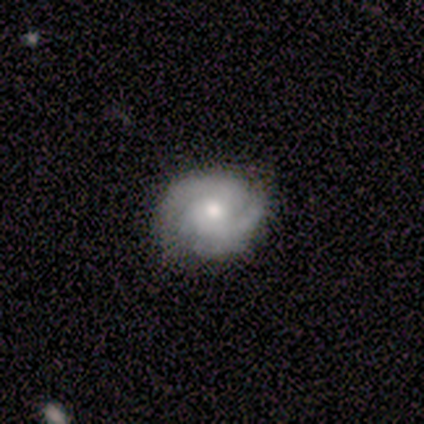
Smooth or featured? featured or disk (75%)
Edge-on disk? no (100%)
Bar? no (100%)
Spiral arms? yes (100%)
Spiral winding? medium (67%)
Spiral arm count? 3 (67%)
Bulge size? moderate (67%)
Merging? none (100%)